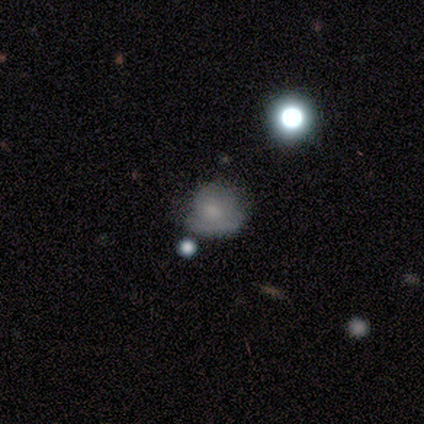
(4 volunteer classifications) Volunteers were most divided on "smooth or featured": star or artifact: 50%, smooth: 25%, featured or disk: 25%.